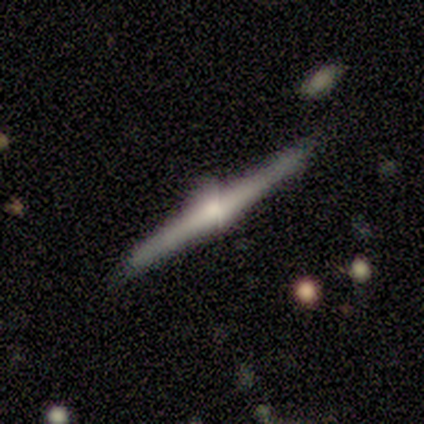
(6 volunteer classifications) featured or disk 83%, smooth 17%, star or artifact 0%. Down the decision tree: edge-on disk — yes (100%); edge-on bulge — rounded (100%); merging — none (83%).